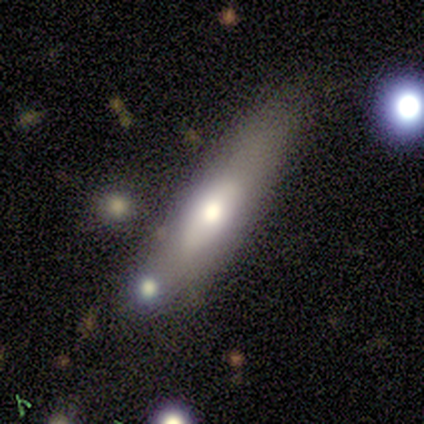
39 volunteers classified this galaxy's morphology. Smooth or featured? 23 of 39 (59%) said featured or disk. Edge-on disk? 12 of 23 (52%) said no. Bar? 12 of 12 (100%) said no. Spiral arms? 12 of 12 (100%) said no. Bulge size? 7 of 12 (58%) said moderate. Merging? 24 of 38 (63%) said none.